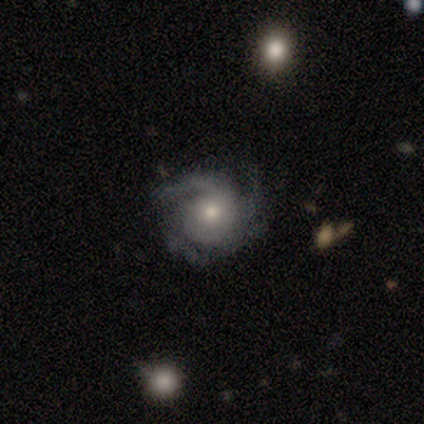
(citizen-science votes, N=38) This appears to be a featured or disk galaxy (87%) with no bar (78%), 3 (47%) tight (69%) spiral arms (100%) and a moderate central bulge (56%). Merging: none (77%).